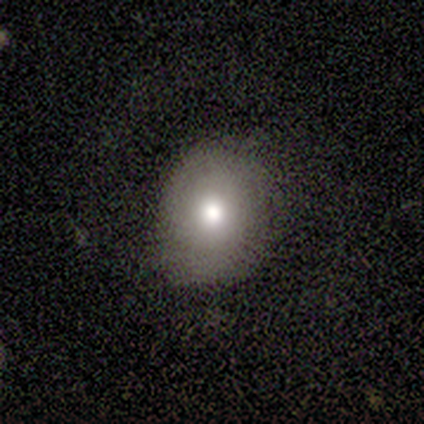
Smooth or featured? smooth (40%, tied with featured or disk)
How rounded? round (100%)
Merging? none (50%)